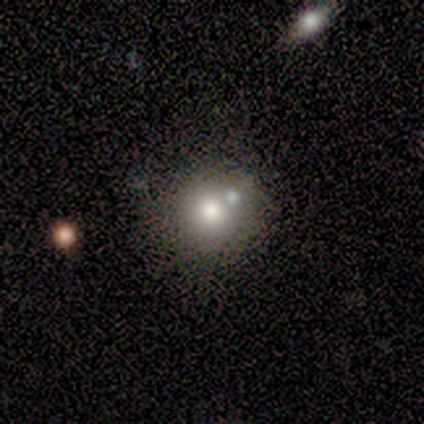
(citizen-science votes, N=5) Q: Smooth or featured?
A: smooth (40%); tied with: featured or disk (40%)
Q: How rounded?
A: round (100%)
Q: Merging?
A: merger (75%); runner-up: none (25%)